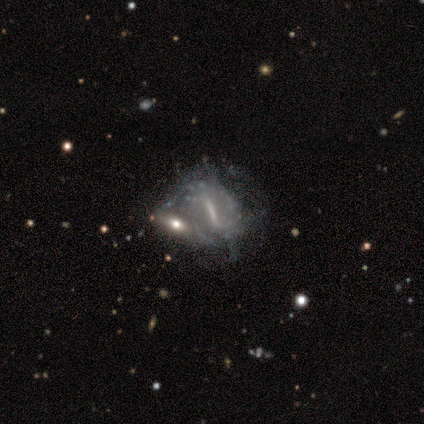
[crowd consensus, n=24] Smooth or featured? featured or disk (75%)
Edge-on disk? no (89%)
Bar? strong (75%)
Spiral arms? yes (50%, tied with no)
Spiral winding? tight (50%)
Spiral arm count? can't tell (88%)
Bulge size? none (56%)
Merging? merger (50%)